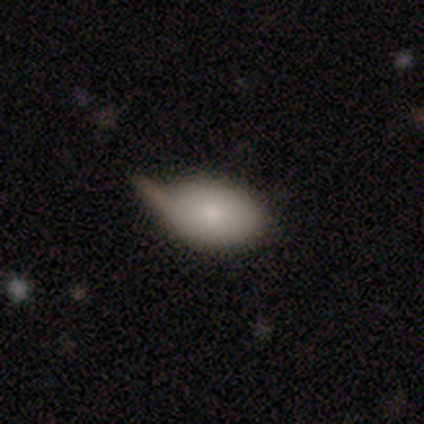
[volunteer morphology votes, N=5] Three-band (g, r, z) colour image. It shows a smooth galaxy with no disk features (80%) that is in between round and cigar-shaped (100%). Merging: none (60%).